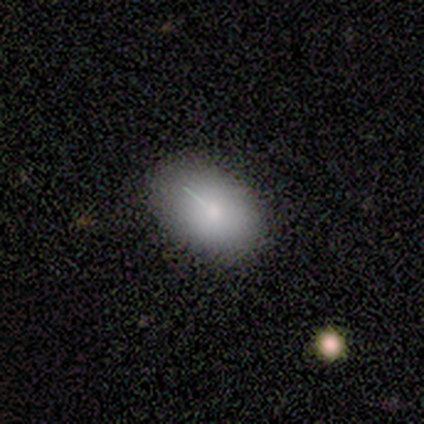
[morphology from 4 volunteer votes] smooth 75%, star or artifact 25%, featured or disk 0%. Down the decision tree: how rounded — in between (67%); merging — none (67%).